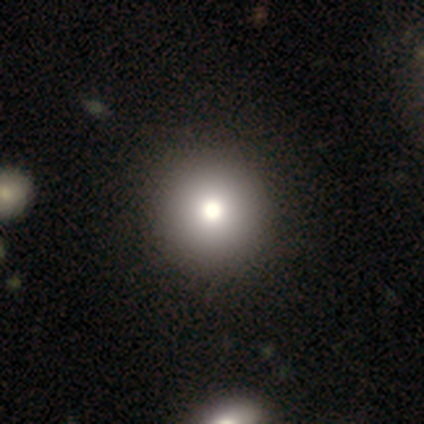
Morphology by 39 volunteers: Smooth or featured? smooth (82%)
How rounded? round (100%)
Merging? none (61%)